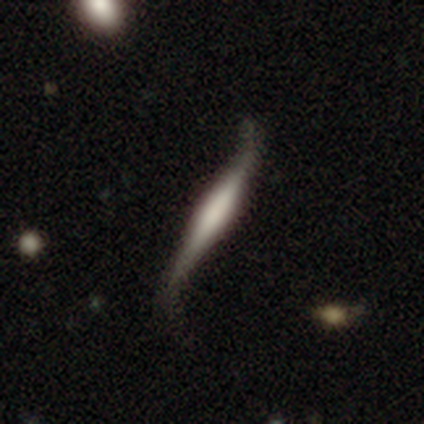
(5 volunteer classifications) This is clearly a featured or disk galaxy (80%). It is likely not viewed edge-on (75%). Bar: clearly strong (100%). Spiral arm pattern: clearly yes (100%). Spiral arm count: clearly 2 (100%). Spiral winding: clearly loose (100%). Central bulge: likely dominant (67%). Merging: likely none (60%).